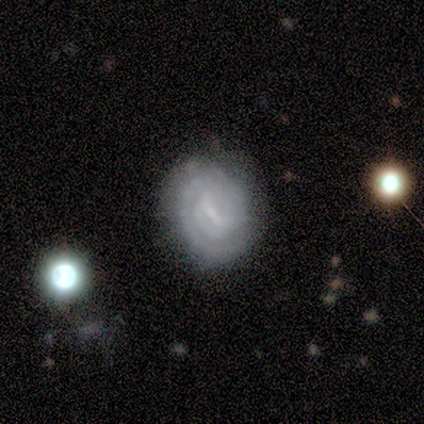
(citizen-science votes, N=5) smooth_or_featured: featured or disk (p=1.00)
disk_edge_on: no (p=1.00)
bar: weak (p=0.60) [alt: strong p=0.20]
has_spiral_arms: yes (p=0.80) [alt: no p=0.20]
spiral_winding: tight (p=0.75) [alt: medium p=0.25]
spiral_arm_count: 1 (p=0.25) [tied with: 2 p=0.25, 3 p=0.25, 4 p=0.25]
bulge_size: small (p=0.40) [tied with: none p=0.40]
merging: none (p=1.00)